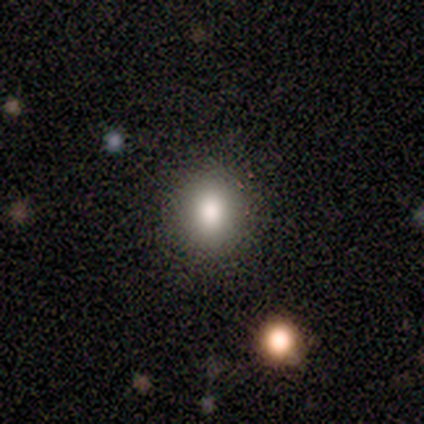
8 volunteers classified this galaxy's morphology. This is likely a smooth galaxy (62%). How rounded: clearly round (80%). Merging: clearly none (100%).